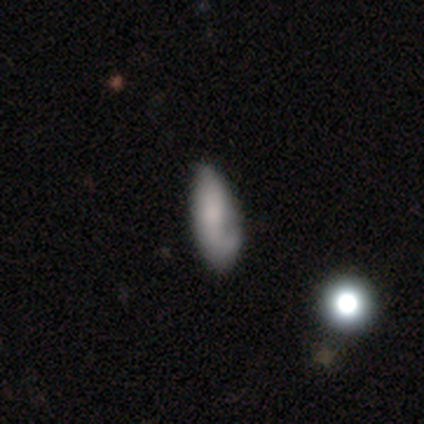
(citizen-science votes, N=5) Smooth or featured: smooth — 60% (featured or disk — 40%)
How rounded: in between — 67% (cigar-shaped — 33%)
Merging: minor disturbance — 60% (none — 40%)